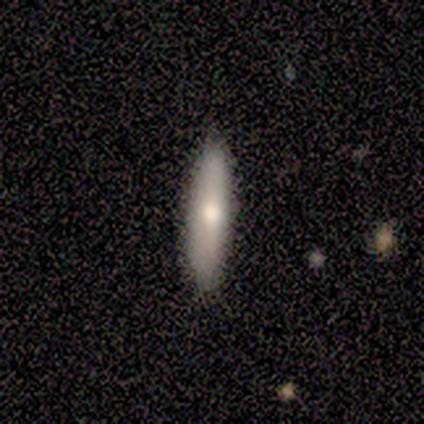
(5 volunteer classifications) featured or disk 60%, smooth 40%, star or artifact 0%. Down the decision tree: edge-on disk — no (67%); bar — no (100%); spiral arms — no (100%); bulge size — moderate (50%, tied with small); merging — none (100%).